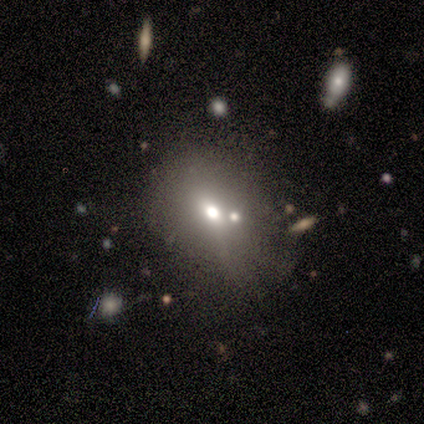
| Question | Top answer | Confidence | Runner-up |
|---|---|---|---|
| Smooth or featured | smooth | 80% | star or artifact (20%) |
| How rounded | in between | 100% | — |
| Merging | minor disturbance | 75% | none (25%) |